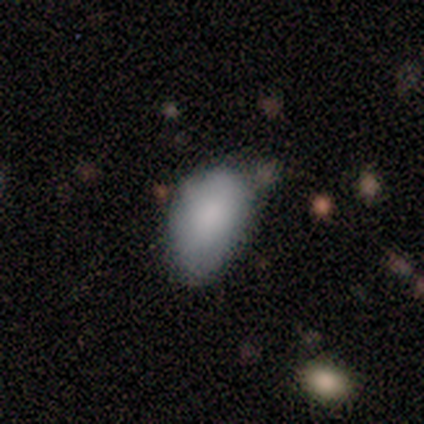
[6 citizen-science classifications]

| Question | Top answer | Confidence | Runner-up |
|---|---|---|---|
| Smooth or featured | smooth | 100% | — |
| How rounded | in between | 100% | — |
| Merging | none | 50% | tied: minor disturbance (50%) |